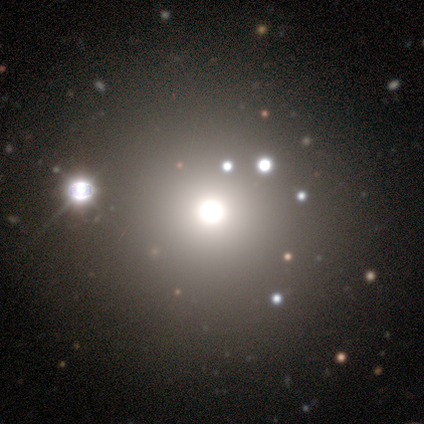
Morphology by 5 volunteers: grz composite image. It shows a star or artifact, not a galaxy (60%).